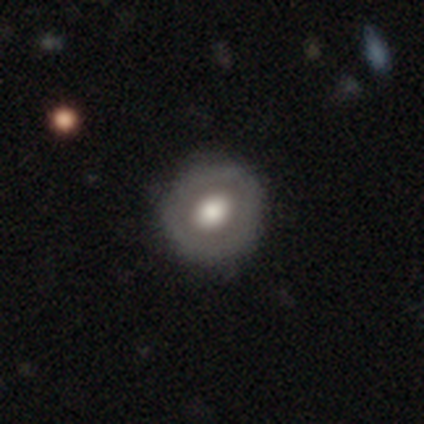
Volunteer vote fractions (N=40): Q: Smooth or featured?
A: featured or disk (52%); runner-up: smooth (48%)
Q: Edge-on disk?
A: no (100%)
Q: Bar?
A: no (86%); runner-up: weak (14%)
Q: Spiral arms?
A: no (95%); runner-up: yes (5%)
Q: Bulge size?
A: large (71%); runner-up: moderate (29%)
Q: Merging?
A: none (72%); runner-up: minor disturbance (5%)